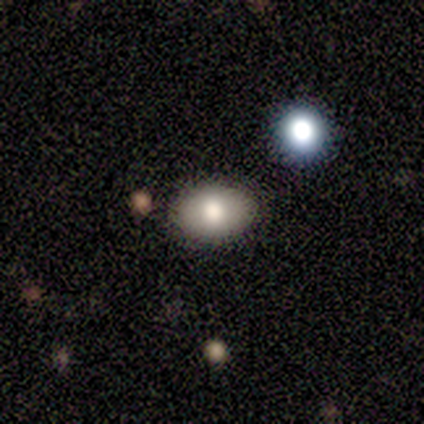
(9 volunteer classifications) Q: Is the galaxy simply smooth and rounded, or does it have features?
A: smooth — 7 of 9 (78%).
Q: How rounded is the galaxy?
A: in between — 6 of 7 (86%).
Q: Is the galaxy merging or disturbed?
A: none — 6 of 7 (86%).